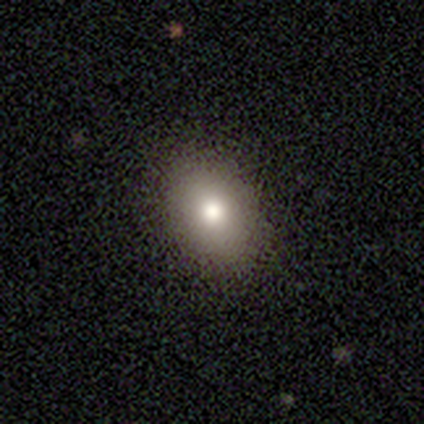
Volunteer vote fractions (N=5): Q: Smooth or featured?
A: smooth (60%); runner-up: featured or disk (20%)
Q: How rounded?
A: in between (100%)
Q: Merging?
A: none (50%); tied with: minor disturbance (50%)